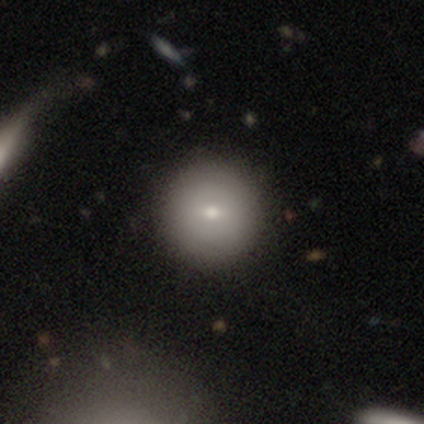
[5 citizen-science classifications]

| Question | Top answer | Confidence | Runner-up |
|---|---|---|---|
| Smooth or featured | smooth | 60% | featured or disk (20%) |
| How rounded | round | 67% | in between (33%) |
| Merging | none | 75% | merger (25%) |